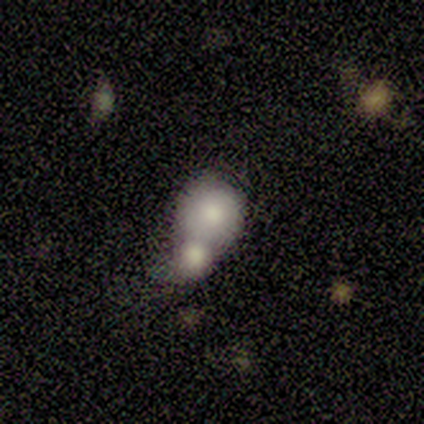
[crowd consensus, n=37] A smooth galaxy with no disk features (76%) that is round (75%).

Vote fractions:
- Smooth or featured? smooth: 76% / featured or disk: 14% / star or artifact: 11%
- How rounded? round: 75% / in between: 25% / cigar-shaped: 0%
- Merging? merger: 79% / none: 15% / minor disturbance: 6% / major disturbance: 0%